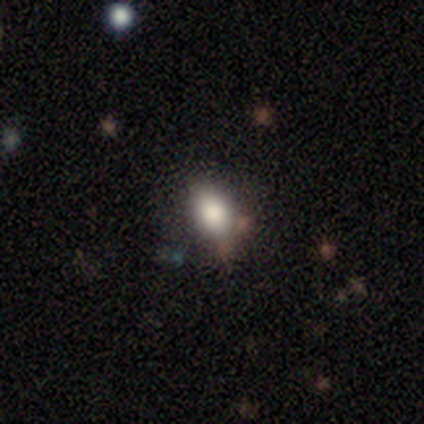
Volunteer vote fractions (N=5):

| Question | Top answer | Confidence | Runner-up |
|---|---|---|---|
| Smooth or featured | smooth | 60% | featured or disk (40%) |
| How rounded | in between | 100% | — |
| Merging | none | 100% | — |